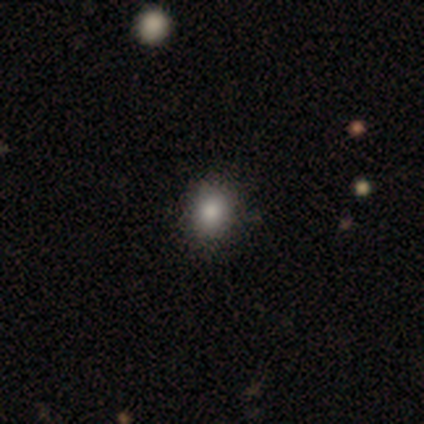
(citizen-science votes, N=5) Q: Smooth or featured?
A: smooth (80%); runner-up: star or artifact (20%)
Q: How rounded?
A: round (75%); runner-up: in between (25%)
Q: Merging?
A: none (100%)